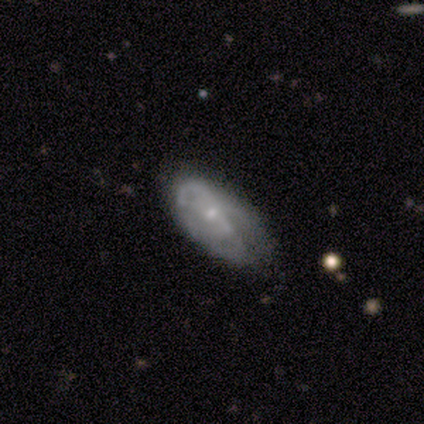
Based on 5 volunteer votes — smooth-or-featured: smooth: 60% | featured or disk: 40% | star or artifact: 0%
  how-rounded: in between: 67% | cigar-shaped: 33% | round: 0%
  merging: none: 40% (tied) | minor disturbance: 40% (tied) | major disturbance: 20% | merger: 0%